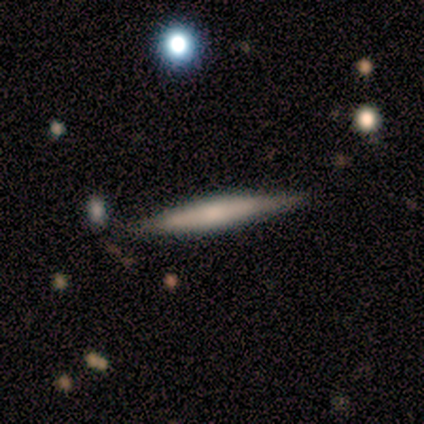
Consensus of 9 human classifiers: A smooth galaxy with no disk features (44%, tied with featured or disk) that is cigar-shaped (100%).

Vote fractions:
- Smooth or featured? smooth: 44% (tied) / featured or disk: 44% (tied) / star or artifact: 11%
- How rounded? cigar-shaped: 100% / round: 0% / in between: 0%
- Merging? none: 88% / minor disturbance: 12% / major disturbance: 0% / merger: 0%